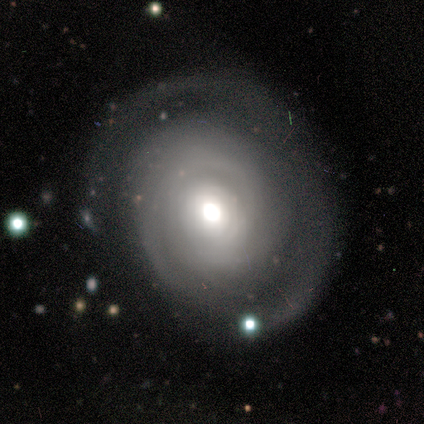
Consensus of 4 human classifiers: Smooth or featured?
  - featured or disk: 100% *
  - smooth: 0%
  - star or artifact: 0%
Edge-on disk?
  - no: 100% *
  - yes: 0%
Bar?
  - no: 100% *
  - strong: 0%
  - weak: 0%
Spiral arms?
  - yes: 75% *
  - no: 25%
Spiral winding?
  - tight: 67% *
  - medium: 33%
  - loose: 0%
Spiral arm count?
  - can't tell: 67% *
  - 3: 33%
  - 1: 0%
  - 2: 0%
  - 4: 0%
  - more than 4: 0%
Bulge size?
  - large: 50% * (tied)
  - moderate: 50% * (tied)
  - dominant: 0%
  - small: 0%
  - none: 0%
Merging?
  - none: 50% *
  - minor disturbance: 25%
  - major disturbance: 25%
  - merger: 0%